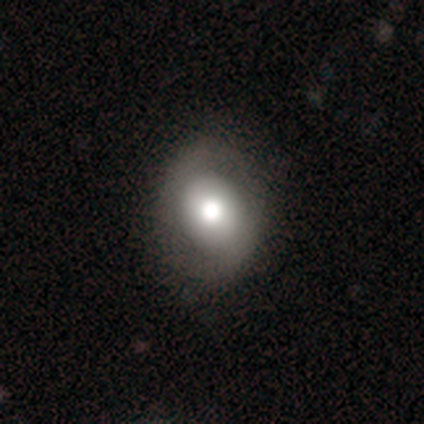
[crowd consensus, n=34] A smooth galaxy with no disk features (44%, tied with featured or disk) that is in between round and cigar-shaped (60%).

Vote fractions:
- Smooth or featured? smooth: 44% (tied) / featured or disk: 44% (tied) / star or artifact: 12%
- How rounded? in between: 60% / round: 40% / cigar-shaped: 0%
- Merging? none: 87% / major disturbance: 10% / minor disturbance: 3% / merger: 0%